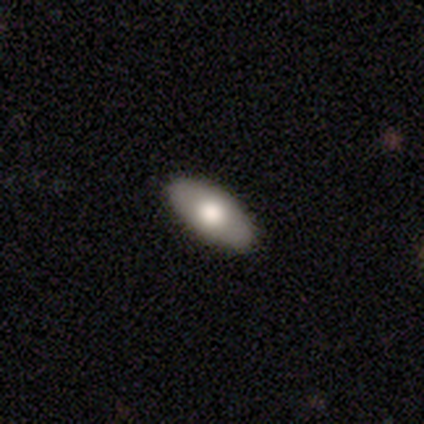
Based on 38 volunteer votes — This appears to be a smooth galaxy with no disk features (74%) that is in between round and cigar-shaped (100%). Merging: none (61%).